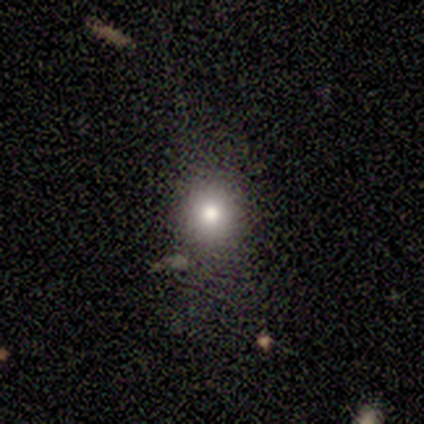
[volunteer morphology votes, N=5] Overall: smooth (60%; star or artifact 40%). How rounded: round (100%). Merging: major disturbance (67%; minor disturbance 33%).